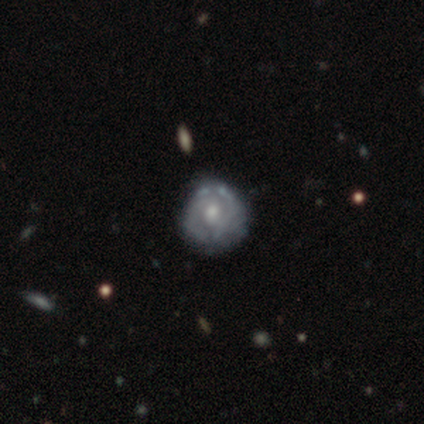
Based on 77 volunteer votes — Volunteers were most divided on "spiral arms": yes: 55%, no: 45%. Remaining: edge-on disk — no (100%); bar — no (83%); smooth or featured — featured or disk (75%); bulge size — moderate (67%); spiral winding — tight (66%); spiral arm count — can't tell (47%); merging — none (44%).